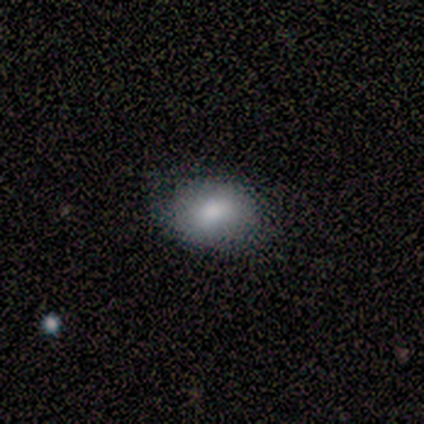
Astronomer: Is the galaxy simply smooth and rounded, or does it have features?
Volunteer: smooth — 100%.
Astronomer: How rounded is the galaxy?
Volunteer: in between — 80%.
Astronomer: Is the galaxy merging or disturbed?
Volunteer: none — 100%.